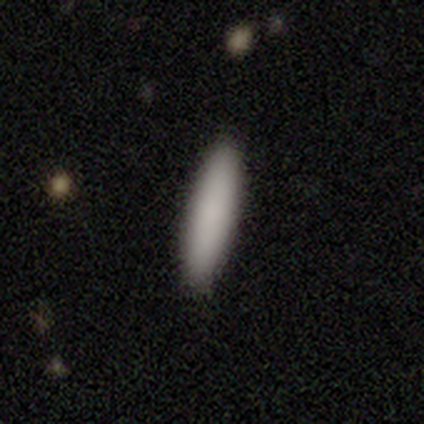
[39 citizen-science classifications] Smooth or featured?
  - smooth: 90% *
  - featured or disk: 8%
  - star or artifact: 3%
How rounded?
  - cigar-shaped: 71% *
  - in between: 26%
  - round: 3%
Merging?
  - none: 89% *
  - minor disturbance: 5%
  - major disturbance: 3%
  - merger: 3%